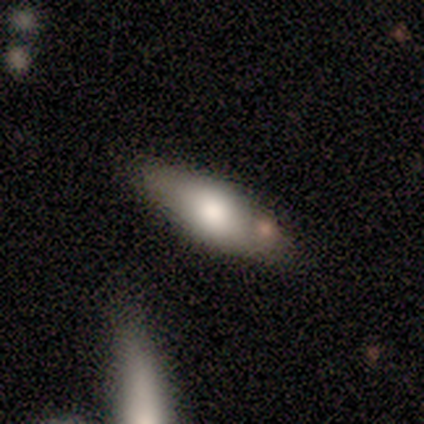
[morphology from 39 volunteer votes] A smooth galaxy with no disk features (64%) that is in between round and cigar-shaped (64%).

Vote fractions:
- Smooth or featured? smooth: 64% / featured or disk: 23% / star or artifact: 13%
- How rounded? in between: 64% / cigar-shaped: 36% / round: 0%
- Merging? none: 76% / minor disturbance: 9% / merger: 9% / major disturbance: 6%